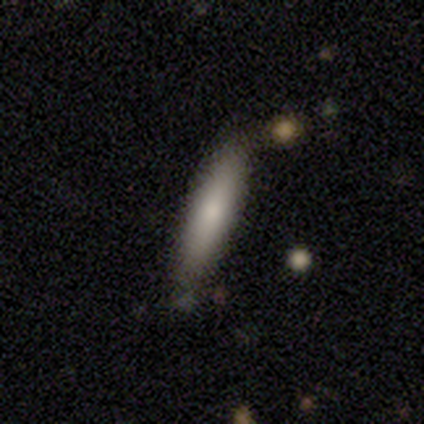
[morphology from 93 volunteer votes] Smooth or featured: smooth — 76% (featured or disk — 19%)
How rounded: cigar-shaped — 86% (in between — 14%)
Merging: none — 81% (minor disturbance — 16%)